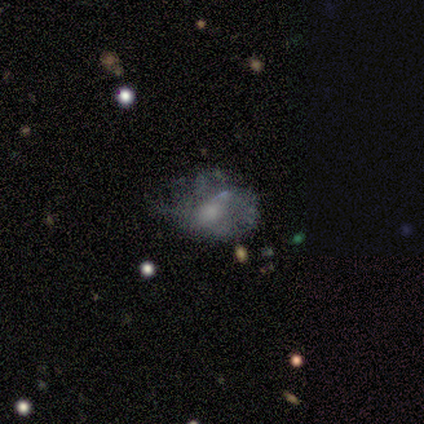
Overall: featured or disk (100%). Edge-on disk: no (100%). Bar: no (100%). Spiral arms: yes (50%, tied with no). Spiral arm count: can't tell (100%). Spiral winding: medium (100%). Bulge size: none (100%). Merging: none (50%, tied with merger).